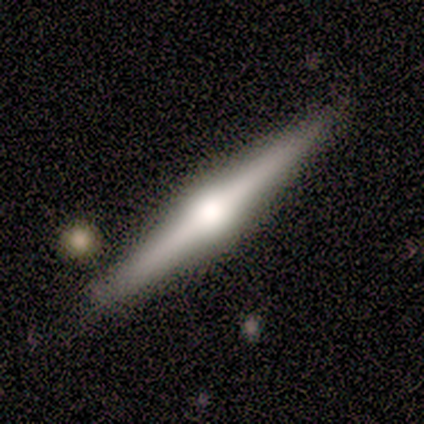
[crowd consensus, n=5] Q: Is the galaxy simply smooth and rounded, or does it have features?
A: featured or disk — 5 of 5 (100%).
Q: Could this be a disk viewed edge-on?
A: yes — 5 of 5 (100%).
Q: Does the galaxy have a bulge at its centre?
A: rounded — 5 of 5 (100%).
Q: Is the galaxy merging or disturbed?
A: none — 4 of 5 (80%).